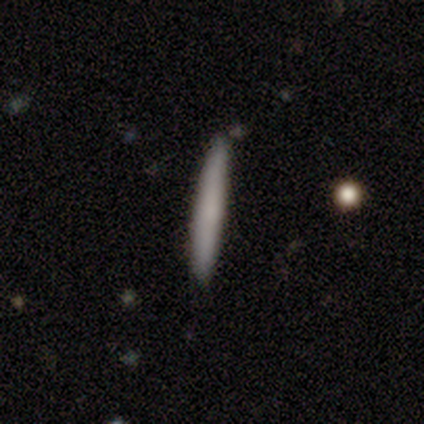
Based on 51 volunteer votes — Smooth or featured?
  - smooth: 76% *
  - featured or disk: 20%
  - star or artifact: 4%
How rounded?
  - cigar-shaped: 100% *
  - round: 0%
  - in between: 0%
Merging?
  - none: 82% *
  - minor disturbance: 16%
  - merger: 2%
  - major disturbance: 0%